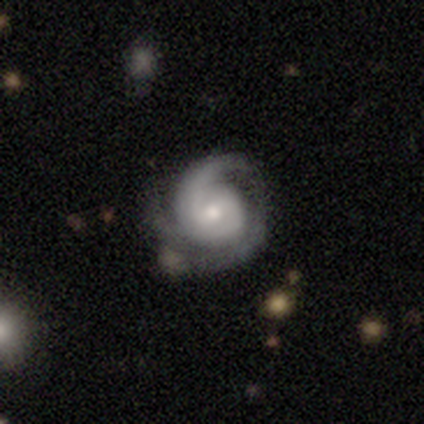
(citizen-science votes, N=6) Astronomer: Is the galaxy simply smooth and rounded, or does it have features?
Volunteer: featured or disk — 100%.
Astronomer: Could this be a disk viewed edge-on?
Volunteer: no — 100%.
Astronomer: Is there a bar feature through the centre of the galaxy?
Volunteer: no — 67%.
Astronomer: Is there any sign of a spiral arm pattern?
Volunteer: yes — 100%.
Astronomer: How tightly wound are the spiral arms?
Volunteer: tight — 67%.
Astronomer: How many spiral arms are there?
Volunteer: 2 — 33%, tied with 3 and can't tell at 33%.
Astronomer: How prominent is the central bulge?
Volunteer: small — 83%.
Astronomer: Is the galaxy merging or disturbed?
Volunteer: none — 83%.